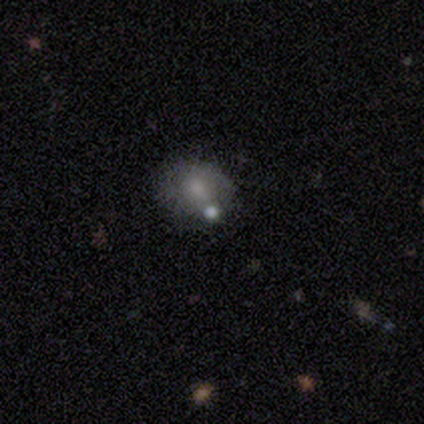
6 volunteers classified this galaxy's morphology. Smooth or featured? smooth (83%)
How rounded? round (80%)
Merging? none (80%)